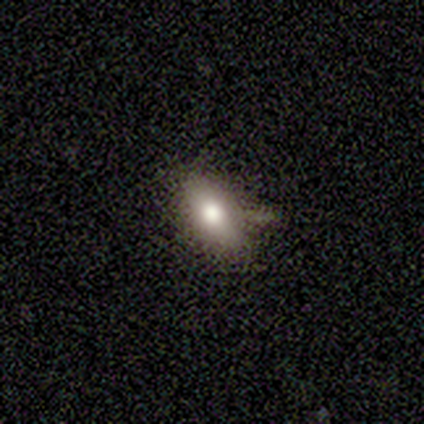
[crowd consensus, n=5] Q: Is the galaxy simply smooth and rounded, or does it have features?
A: smooth — 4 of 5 (80%).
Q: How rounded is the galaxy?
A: in between — 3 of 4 (75%).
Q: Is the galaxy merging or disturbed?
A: minor disturbance — 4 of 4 (100%).